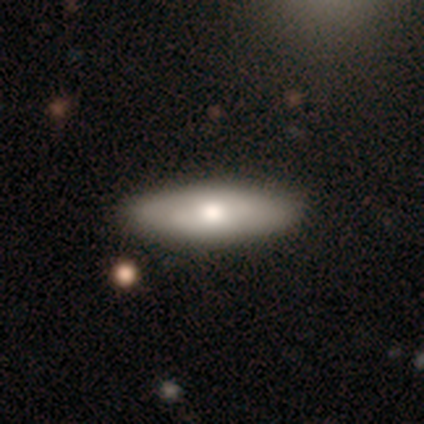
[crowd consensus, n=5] Overall: smooth (60%; featured or disk 40%). How rounded: cigar-shaped (67%; in between 33%). Merging: none (60%; minor disturbance 20%).